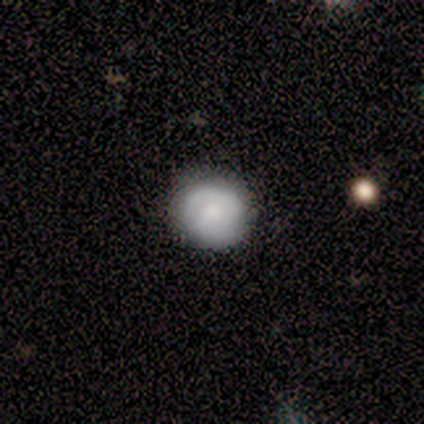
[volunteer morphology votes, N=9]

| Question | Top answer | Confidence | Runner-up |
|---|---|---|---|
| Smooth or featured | smooth | 67% | featured or disk (22%) |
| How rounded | round | 67% | in between (33%) |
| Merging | none | 75% | minor disturbance (25%) |